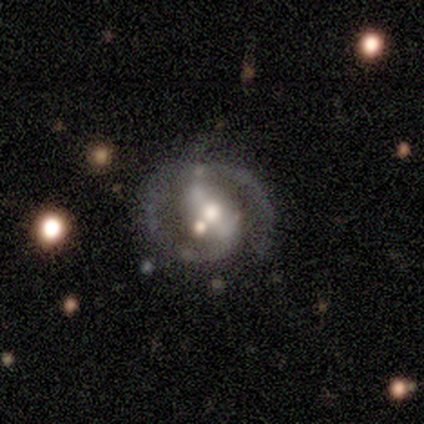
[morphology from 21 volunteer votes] smooth_or_featured: featured or disk (p=0.95) [alt: star or artifact p=0.05]
disk_edge_on: no (p=0.95) [alt: yes p=0.05]
bar: strong (p=0.42) [tied with: weak p=0.42]
has_spiral_arms: yes (p=0.95) [alt: no p=0.05]
spiral_winding: medium (p=0.56) [alt: tight p=0.28]
spiral_arm_count: 2 (p=0.94) [alt: 1 p=0.06]
bulge_size: moderate (p=0.68) [alt: large p=0.11]
merging: none (p=0.45) [alt: minor disturbance p=0.40]